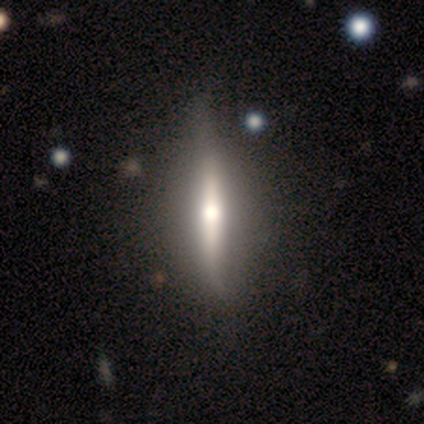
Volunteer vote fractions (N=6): This is clearly a featured or disk galaxy (83%). It is clearly viewed edge-on (100%). Edge-on bulge: clearly rounded (100%). Merging: clearly none (83%).